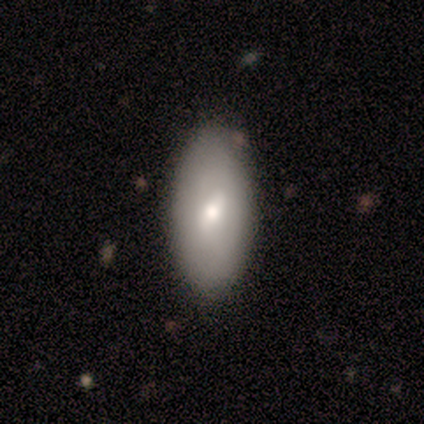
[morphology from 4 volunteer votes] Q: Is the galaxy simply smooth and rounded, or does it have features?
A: smooth — 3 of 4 (75%).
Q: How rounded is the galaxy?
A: in between — 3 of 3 (100%).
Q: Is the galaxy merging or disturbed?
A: none — 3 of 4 (75%).